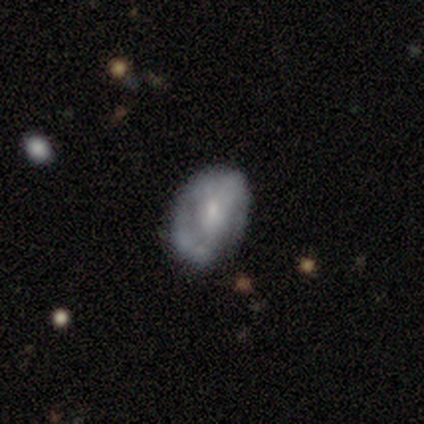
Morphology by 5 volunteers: Smooth or featured? 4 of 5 (80%) said smooth. How rounded? 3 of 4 (75%) said in between. Merging? 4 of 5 (80%) said none.